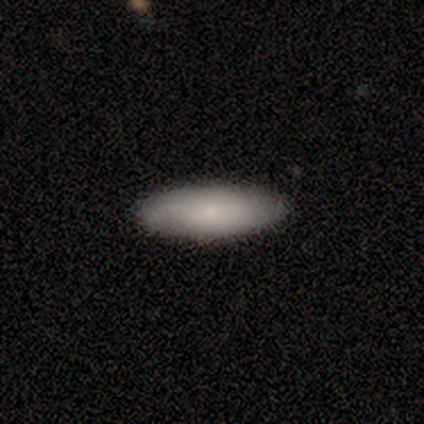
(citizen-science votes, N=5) This is likely a smooth galaxy (60%). How rounded: likely in between (67%). Merging: clearly none (80%).